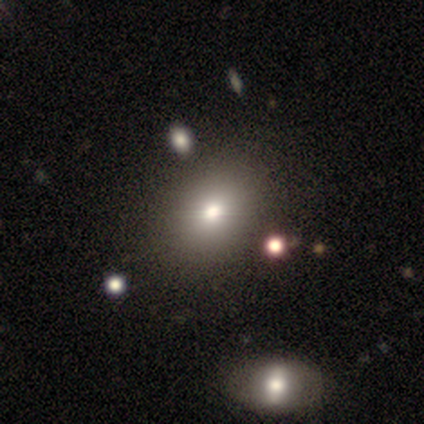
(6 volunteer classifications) A smooth galaxy with no disk features (50%) that is round (67%). Merging: none (100%).